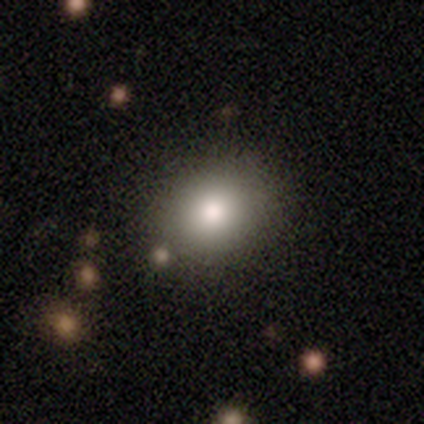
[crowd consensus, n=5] Smooth or featured: smooth — 60% (featured or disk — 40%)
How rounded: round — 67% (in between — 33%)
Merging: none — 60% (major disturbance — 20%)